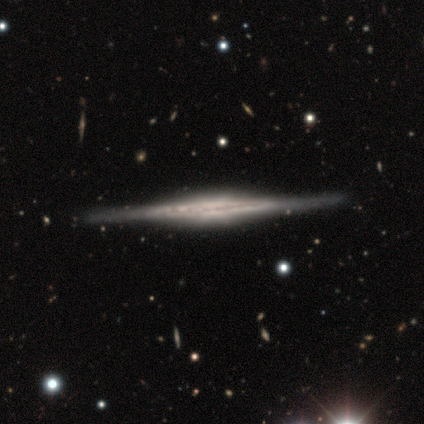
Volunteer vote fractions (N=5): This is clearly a featured or disk galaxy (100%). It is clearly viewed edge-on (100%). Edge-on bulge: likely rounded (60%). Merging: clearly none (80%).